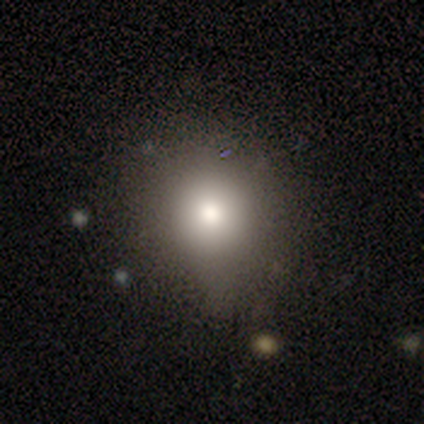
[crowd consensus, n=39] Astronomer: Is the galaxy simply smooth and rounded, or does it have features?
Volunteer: smooth — 74%.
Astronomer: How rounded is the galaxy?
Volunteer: round — 90%.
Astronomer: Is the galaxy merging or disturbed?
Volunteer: none — 66%.